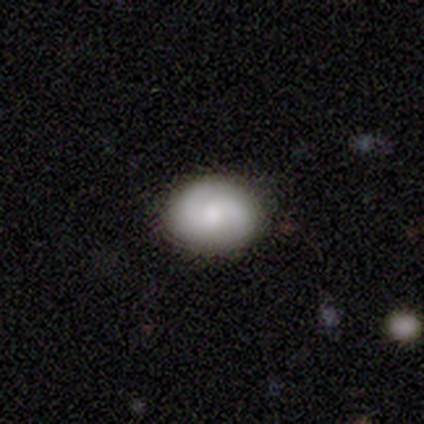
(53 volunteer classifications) Q: Smooth or featured?
A: smooth (45%); tied with: featured or disk (45%)
Q: How rounded?
A: round (62%); runner-up: in between (38%)
Q: Merging?
A: none (88%); runner-up: minor disturbance (12%)